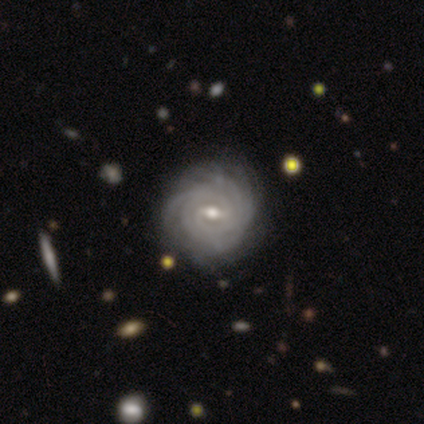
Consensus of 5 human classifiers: featured or disk 100%, smooth 0%, star or artifact 0%. Down the decision tree: edge-on disk — no (100%); bar — weak (60%); spiral arms — yes (100%); spiral arm count — 3 (60%); spiral winding — tight (100%); bulge size — small (60%); merging — none (100%).